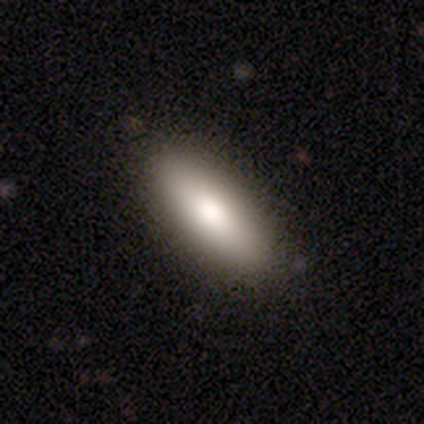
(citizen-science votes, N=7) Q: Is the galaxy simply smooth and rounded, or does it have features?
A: smooth — 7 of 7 (100%).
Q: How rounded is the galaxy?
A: in between — 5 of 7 (71%).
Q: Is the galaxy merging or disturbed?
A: none — 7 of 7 (100%).